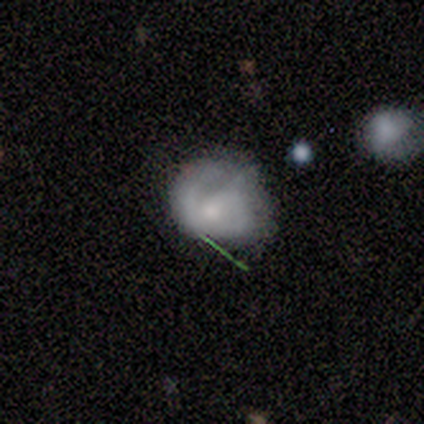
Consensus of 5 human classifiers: smooth-or-featured: featured or disk: 60% | smooth: 20% | star or artifact: 20%
  disk-edge-on: no: 100% | yes: 0%
    bar: weak: 67% | no: 33% | strong: 0%
    has-spiral-arms: yes: 67% | no: 33%
      spiral-winding: medium: 100% | tight: 0% | loose: 0%
      spiral-arm-count: 2: 100% | 1: 0% | 3: 0% | 4: 0% | more than 4: 0% | can't tell: 0%
    bulge-size: large: 67% | moderate: 33% | dominant: 0% | small: 0% | none: 0%
  merging: none: 25% (tied) | minor disturbance: 25% (tied) | major disturbance: 25% (tied) | merger: 25% (tied)